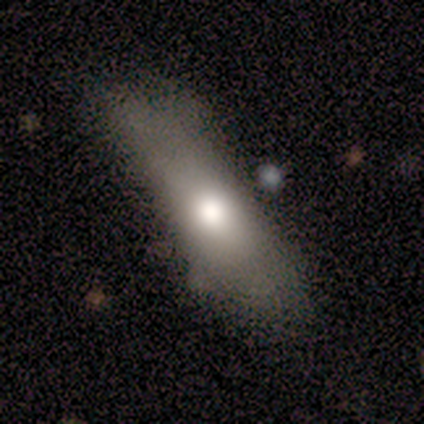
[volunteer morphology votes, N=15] smooth-or-featured: smooth: 73% | featured or disk: 20% | star or artifact: 7%
  how-rounded: cigar-shaped: 55% | in between: 45% | round: 0%
  merging: none: 43% | minor disturbance: 29% | major disturbance: 21% | merger: 7%